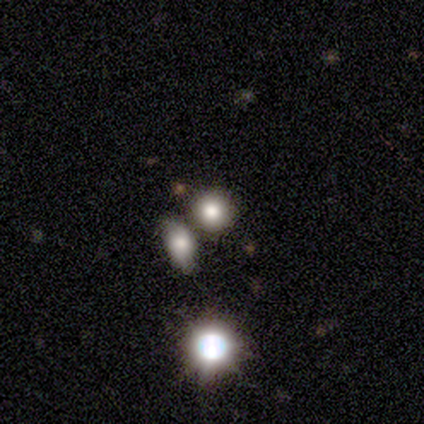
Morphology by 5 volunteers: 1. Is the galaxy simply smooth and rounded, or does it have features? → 80% smooth, 20% featured or disk, 0% star or artifact.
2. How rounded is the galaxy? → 100% round, 0% in between, 0% cigar-shaped.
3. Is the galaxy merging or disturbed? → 80% none, 20% merger, 0% minor disturbance, 0% major disturbance.